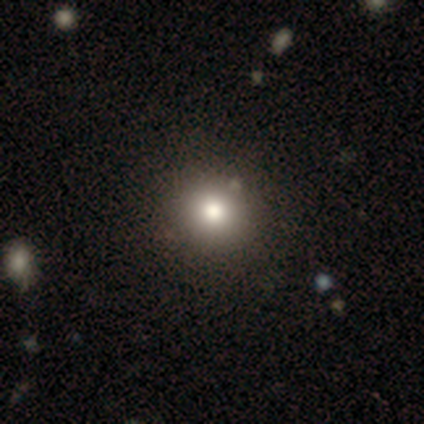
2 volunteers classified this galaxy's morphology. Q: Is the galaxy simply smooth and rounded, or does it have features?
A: smooth — 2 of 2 (100%).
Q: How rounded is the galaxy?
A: round — 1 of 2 (50%, tied with in between).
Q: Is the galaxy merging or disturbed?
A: none — 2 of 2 (100%).